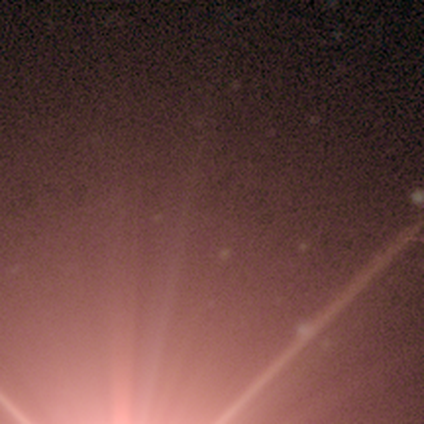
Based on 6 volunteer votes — smooth-or-featured: star or artifact: 100% | smooth: 0% | featured or disk: 0%